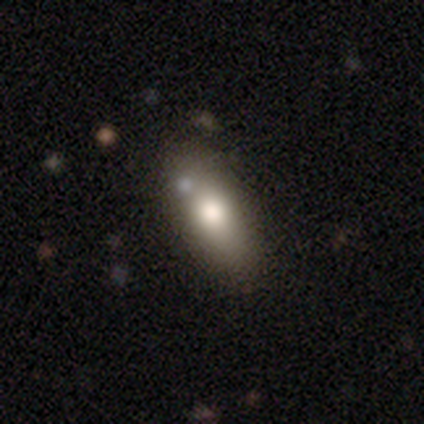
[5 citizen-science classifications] Smooth or featured? 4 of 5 (80%) said smooth. How rounded? 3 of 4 (75%) said in between. Merging? 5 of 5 (100%) said none.